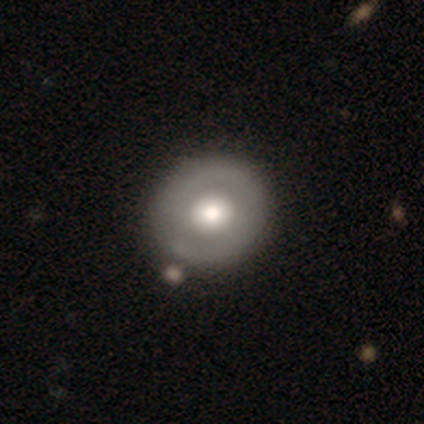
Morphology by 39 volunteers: smooth_or_featured: featured or disk (p=0.72) [alt: smooth p=0.26]
disk_edge_on: no (p=1.00)
bar: no (p=0.82) [alt: weak p=0.11]
has_spiral_arms: yes (p=0.57) [alt: no p=0.43]
spiral_winding: tight (p=0.62) [alt: medium p=0.25]
spiral_arm_count: 2 (p=0.75) [alt: 1 p=0.25]
bulge_size: moderate (p=0.50) [alt: large p=0.39]
merging: none (p=0.58) [alt: minor disturbance p=0.08]